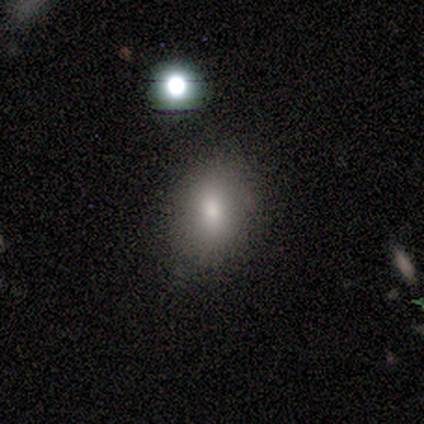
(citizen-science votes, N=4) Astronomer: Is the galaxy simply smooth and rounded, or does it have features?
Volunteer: smooth — 100%.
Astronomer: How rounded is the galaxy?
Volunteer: round — 75%.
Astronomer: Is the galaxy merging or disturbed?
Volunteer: none — 75%.